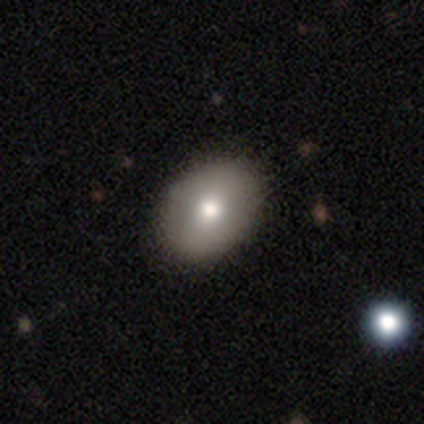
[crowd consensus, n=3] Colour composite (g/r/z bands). It shows a smooth galaxy with no disk features (67%) that is round (50%, tied with in between). Merging: none (100%).